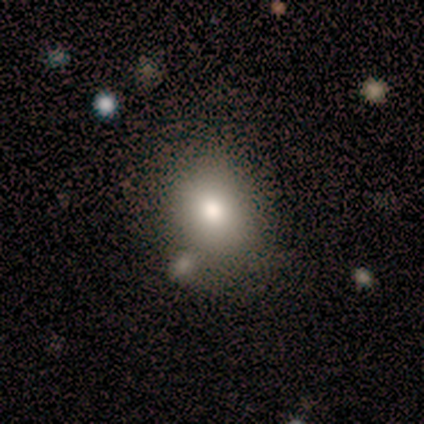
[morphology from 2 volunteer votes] Q: Smooth or featured?
A: smooth (100%)
Q: How rounded?
A: in between (100%)
Q: Merging?
A: none (50%); tied with: major disturbance (50%)